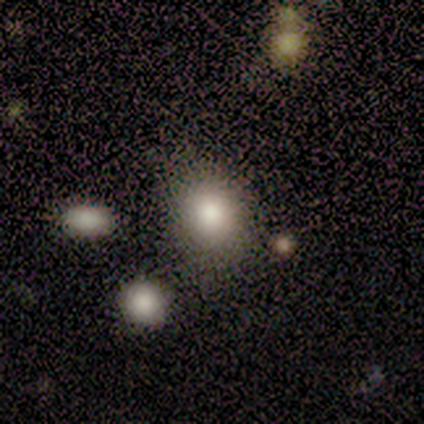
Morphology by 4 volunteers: Volunteers were most divided on "how rounded": in between: 67%, round: 33%, cigar-shaped: 0%. More confident: smooth or featured — smooth (75%); merging — none (67%).